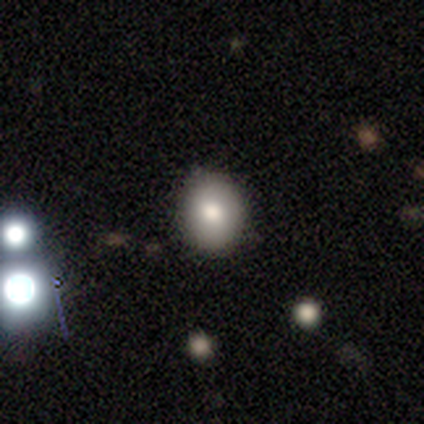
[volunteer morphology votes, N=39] A smooth galaxy with no disk features (77%) that is round (60%).

Vote fractions:
- Smooth or featured? smooth: 77% / featured or disk: 13% / star or artifact: 10%
- How rounded? round: 60% / in between: 40% / cigar-shaped: 0%
- Merging? none: 77% / minor disturbance: 20% / merger: 3% / major disturbance: 0%